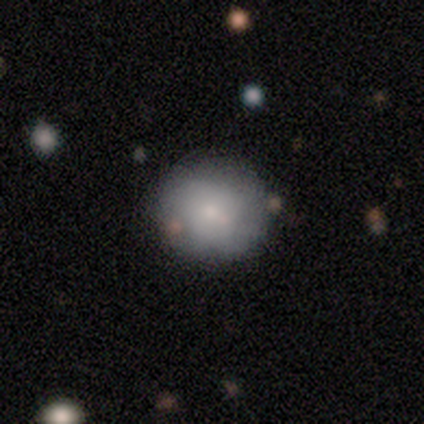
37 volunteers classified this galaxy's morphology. Volunteers were most divided on "smooth or featured": smooth: 73%, featured or disk: 19%, star or artifact: 8%. More confident: how rounded — round (96%); merging — none (76%).